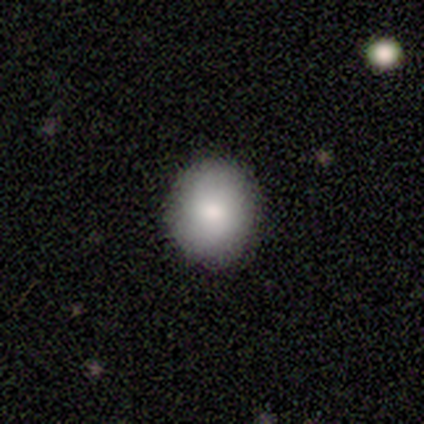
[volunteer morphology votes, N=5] Smooth or featured? smooth (80%)
How rounded? round (75%)
Merging? none (100%)